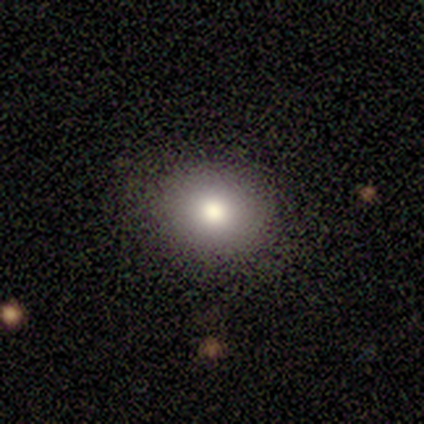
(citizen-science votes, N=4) Smooth or featured? 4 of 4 (100%) said smooth. How rounded? 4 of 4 (100%) said round. Merging? 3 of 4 (75%) said none.